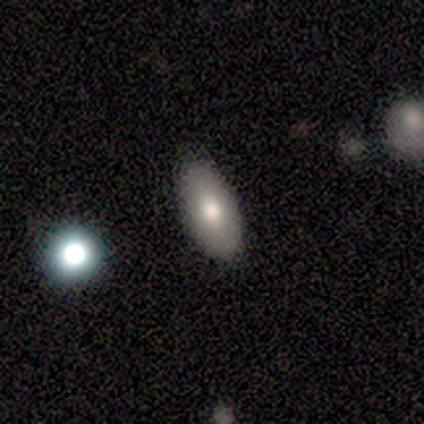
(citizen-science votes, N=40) Smooth or featured? smooth (72%)
How rounded? in between (97%)
Merging? none (76%)